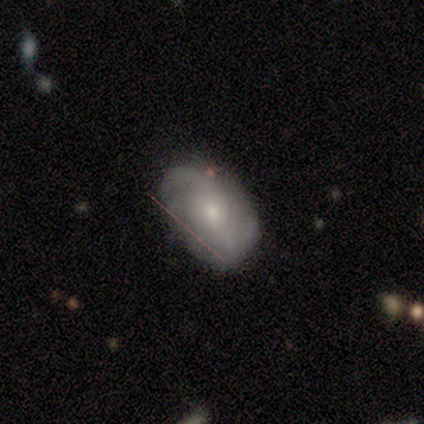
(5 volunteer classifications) A featured or disk galaxy (100%) with no bar (100%), 2 (50%) medium (50%, tied with loose) spiral arms (100%) and a moderate central bulge (50%). Merging: none (40%, tied with minor disturbance).